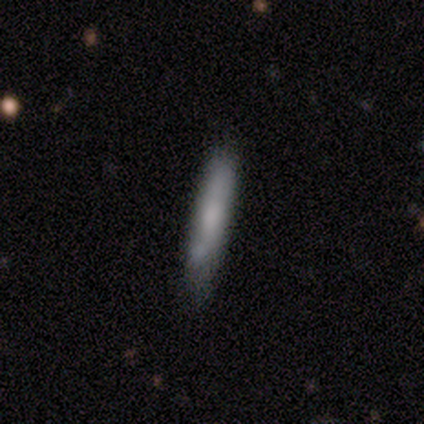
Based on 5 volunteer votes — A smooth galaxy with no disk features (60%) that is cigar-shaped (67%).

Vote fractions:
- Smooth or featured? smooth: 60% / featured or disk: 20% / star or artifact: 20%
- How rounded? cigar-shaped: 67% / in between: 33% / round: 0%
- Merging? none: 75% / merger: 25% / minor disturbance: 0% / major disturbance: 0%